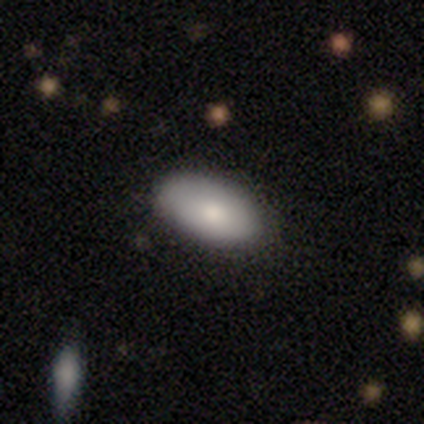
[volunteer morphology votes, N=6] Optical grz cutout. It shows a smooth galaxy with no disk features (67%) that is in between round and cigar-shaped (100%). Merging: none (83%).